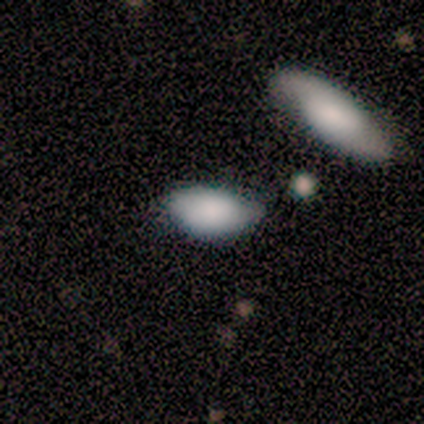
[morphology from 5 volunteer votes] A smooth galaxy with no disk features (80%) that is in between round and cigar-shaped (75%).

Vote fractions:
- Smooth or featured? smooth: 80% / featured or disk: 20% / star or artifact: 0%
- How rounded? in between: 75% / round: 25% / cigar-shaped: 0%
- Merging? none: 40% (tied) / minor disturbance: 40% (tied) / merger: 20% / major disturbance: 0%